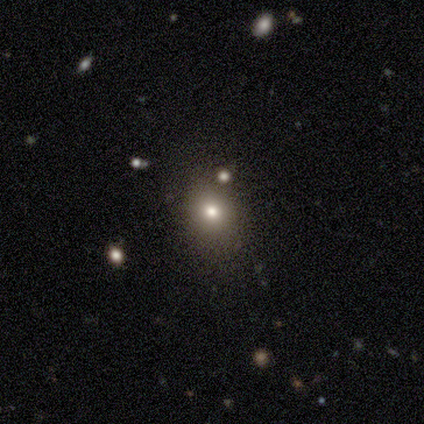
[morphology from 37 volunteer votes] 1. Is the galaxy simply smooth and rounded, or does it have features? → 73% smooth, 19% star or artifact, 8% featured or disk.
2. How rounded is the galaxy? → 59% round, 41% in between, 0% cigar-shaped.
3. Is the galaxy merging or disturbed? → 80% none, 10% minor disturbance, 7% merger, 3% major disturbance.